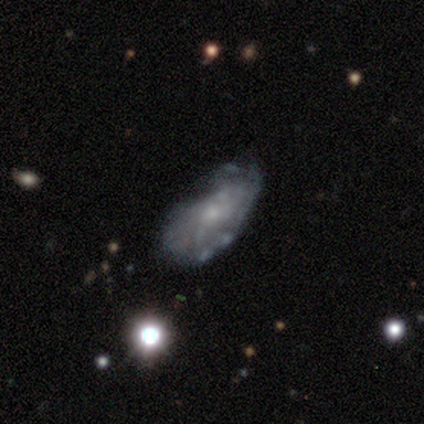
Morphology: type=featured or disk (64%); edge-on=no (96%); bar=no (79%); spiral arms=yes (50%, tied with no); winding=tight (67%); arm count=can't tell (83%); bulge=small (88%); merging=none (44%, tied with minor disturbance).